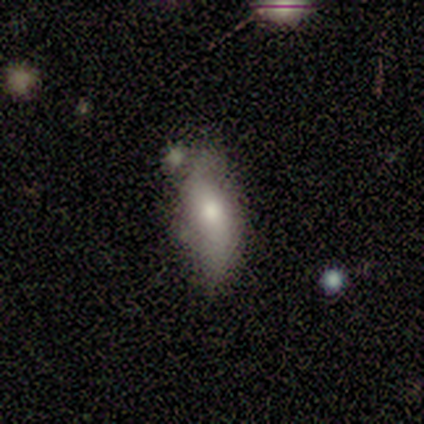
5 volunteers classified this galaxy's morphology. smooth_or_featured: smooth (p=1.00)
how_rounded: in between (p=0.80) [alt: cigar-shaped p=0.20]
merging: none (p=0.60) [alt: minor disturbance p=0.40]